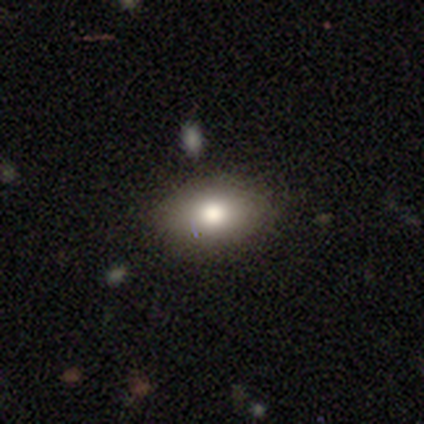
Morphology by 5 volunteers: Smooth or featured?
  - smooth: 60% *
  - star or artifact: 40%
  - featured or disk: 0%
How rounded?
  - in between: 67% *
  - round: 33%
  - cigar-shaped: 0%
Merging?
  - none: 67% *
  - minor disturbance: 33%
  - major disturbance: 0%
  - merger: 0%